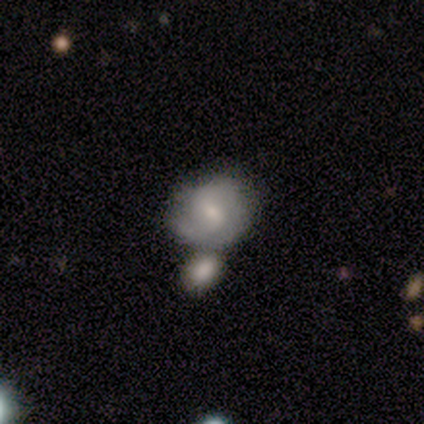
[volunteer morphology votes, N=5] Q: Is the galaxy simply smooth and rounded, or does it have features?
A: smooth — 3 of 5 (60%).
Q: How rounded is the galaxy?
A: round — 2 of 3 (67%).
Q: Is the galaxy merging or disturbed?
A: minor disturbance — 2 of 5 (40%, tied with merger).